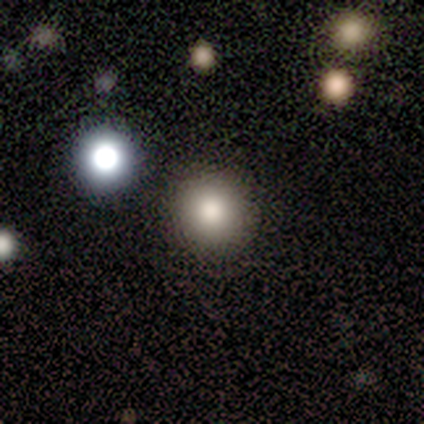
Morphology: type=smooth (80%); roundness=round (100%); merging=none (100%).